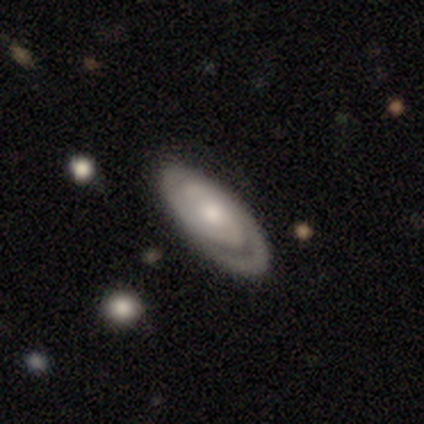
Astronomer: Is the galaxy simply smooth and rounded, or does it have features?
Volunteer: featured or disk — 100%.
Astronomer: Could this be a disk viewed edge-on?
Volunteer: no — 83%.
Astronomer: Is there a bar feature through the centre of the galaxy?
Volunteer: no — 80%.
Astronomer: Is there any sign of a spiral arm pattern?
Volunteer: yes — 100%.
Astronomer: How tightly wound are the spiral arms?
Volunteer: tight — 100%.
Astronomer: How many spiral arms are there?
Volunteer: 2 — 60% (runner-up: can't tell, 40%).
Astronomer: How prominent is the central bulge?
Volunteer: moderate — 60%.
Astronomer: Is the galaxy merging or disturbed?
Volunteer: none — 100%.